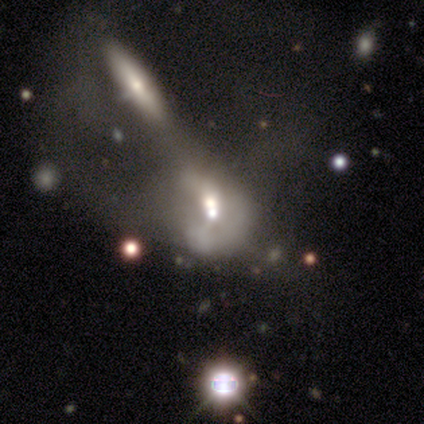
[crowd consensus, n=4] A smooth galaxy with no disk features (50%, tied with featured or disk) that is round (50%, tied with in between). Merging: merger (50%).